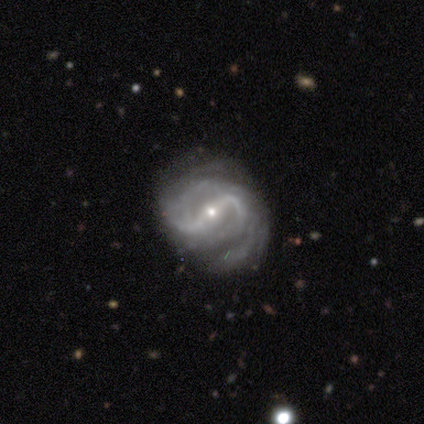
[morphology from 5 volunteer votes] Q: Smooth or featured?
A: featured or disk (100%)
Q: Edge-on disk?
A: no (100%)
Q: Bar?
A: strong (60%); runner-up: weak (20%)
Q: Spiral arms?
A: yes (100%)
Q: Spiral winding?
A: medium (60%); runner-up: loose (40%)
Q: Spiral arm count?
A: 2 (100%)
Q: Bulge size?
A: small (100%)
Q: Merging?
A: none (80%); runner-up: minor disturbance (20%)